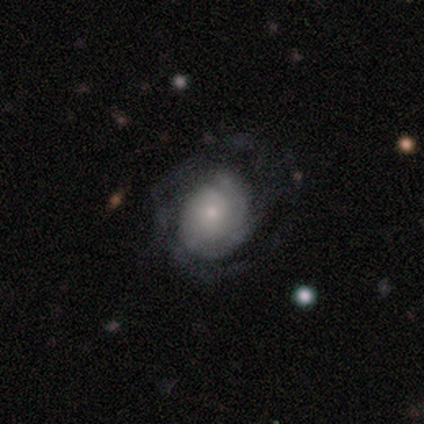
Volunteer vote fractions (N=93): Smooth or featured: featured or disk — 74% (smooth — 20%)
Edge-on disk: no — 96% (yes — 4%)
Bar: no — 77% (weak — 21%)
Spiral arms: yes — 91% (no — 9%)
Spiral winding: tight — 68% (medium — 23%)
Spiral arm count: can't tell — 43% (2 — 28%)
Bulge size: small — 64% (moderate — 26%)
Merging: none — 61% (major disturbance — 20%)